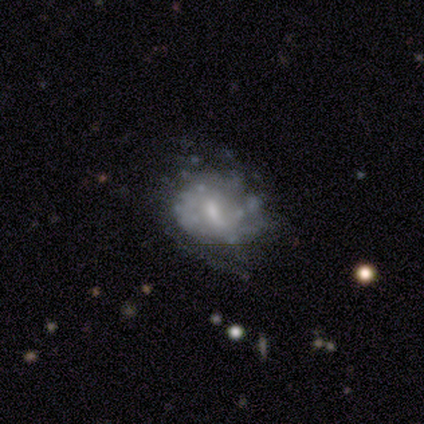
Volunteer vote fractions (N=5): Smooth or featured?
  - featured or disk: 60% *
  - smooth: 20%
  - star or artifact: 20%
Edge-on disk?
  - no: 100% *
  - yes: 0%
Bar?
  - weak: 100% *
  - strong: 0%
  - no: 0%
Spiral arms?
  - no: 67% *
  - yes: 33%
Bulge size?
  - moderate: 67% *
  - none: 33%
  - dominant: 0%
  - large: 0%
  - small: 0%
Merging?
  - minor disturbance: 50% *
  - none: 25%
  - major disturbance: 25%
  - merger: 0%